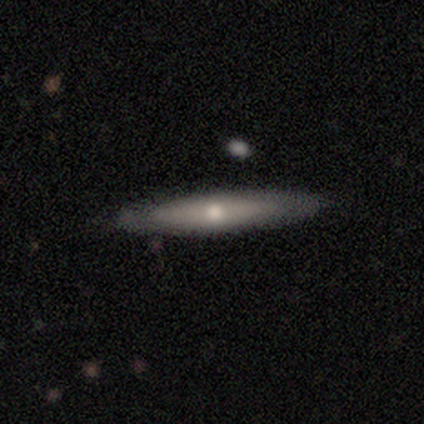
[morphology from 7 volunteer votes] Smooth or featured? 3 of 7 (43%) said smooth. How rounded? 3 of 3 (100%) said cigar-shaped. Merging? 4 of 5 (80%) said none.